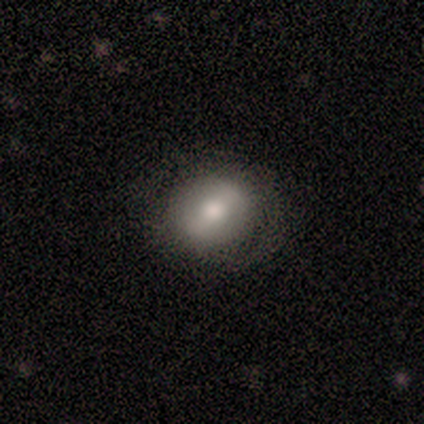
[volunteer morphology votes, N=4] Q: Smooth or featured?
A: smooth (75%); runner-up: featured or disk (25%)
Q: How rounded?
A: round (67%); runner-up: in between (33%)
Q: Merging?
A: none (100%)